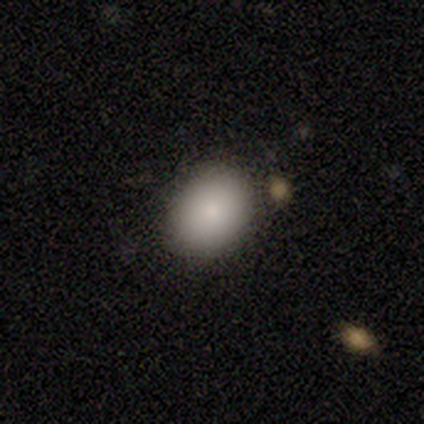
Overall: smooth (80%). How rounded: round (50%, tied with in between). Merging: none (100%).